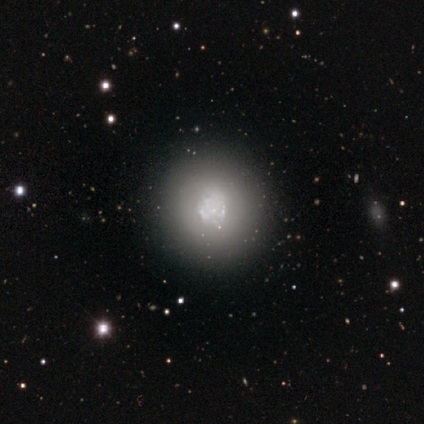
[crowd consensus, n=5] smooth_or_featured: featured or disk (p=0.60) [alt: smooth p=0.20]
disk_edge_on: no (p=1.00)
bar: no (p=1.00)
has_spiral_arms: no (p=1.00)
bulge_size: large (p=1.00)
merging: none (p=1.00)